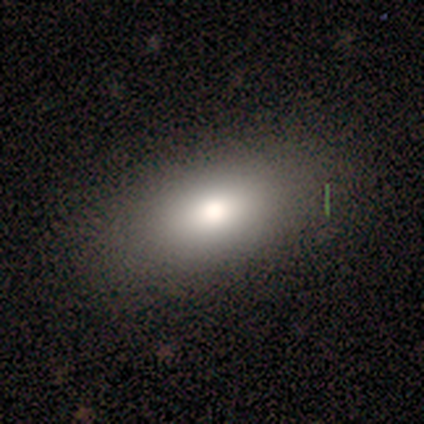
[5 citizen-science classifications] Smooth or featured: smooth — 100%
How rounded: in between — 100%
Merging: none — 100%